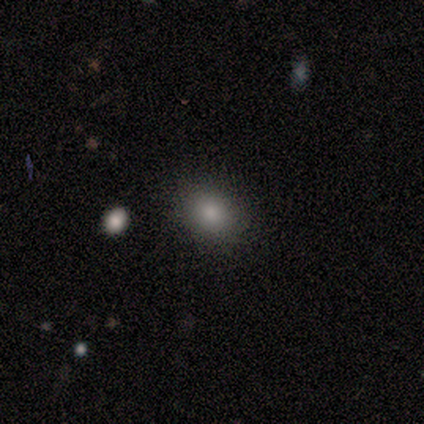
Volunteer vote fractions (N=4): Volunteers were most divided on "how rounded": in between: 67%, round: 33%, cigar-shaped: 0%. More confident: merging — none (100%); smooth or featured — smooth (75%).